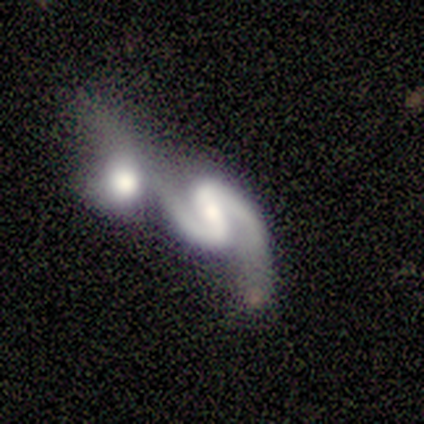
featured or disk 60%, smooth 40%, star or artifact 0%. Down the decision tree: edge-on disk — no (100%); bar — weak (67%); spiral arms — yes (100%); spiral arm count — 2 (100%); spiral winding — medium (100%); bulge size — moderate (33%, tied with small and none); merging — merger (60%).